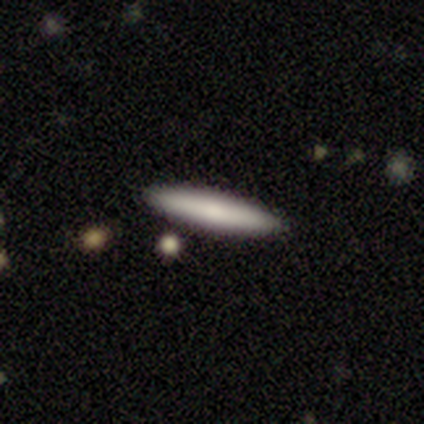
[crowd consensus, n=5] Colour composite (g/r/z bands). It shows a smooth galaxy with no disk features (60%) that is cigar-shaped (100%). Merging: none (100%).